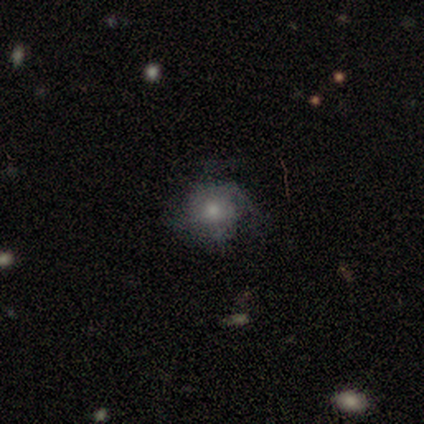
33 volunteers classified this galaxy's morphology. Q: Smooth or featured?
A: featured or disk (52%); runner-up: smooth (39%)
Q: Edge-on disk?
A: no (100%)
Q: Bar?
A: no (94%); runner-up: weak (6%)
Q: Spiral arms?
A: yes (82%); runner-up: no (18%)
Q: Spiral winding?
A: medium (79%); runner-up: loose (14%)
Q: Spiral arm count?
A: 3 (29%); tied with: 4 (29%)
Q: Bulge size?
A: small (53%); runner-up: moderate (41%)
Q: Merging?
A: none (53%); runner-up: minor disturbance (27%)